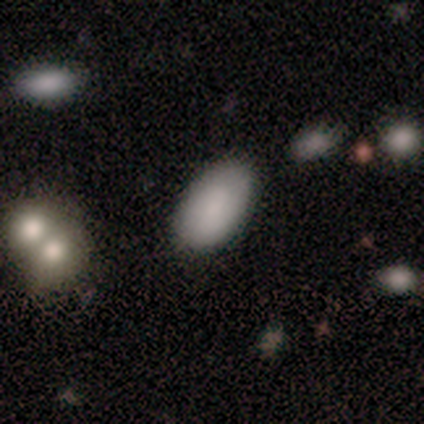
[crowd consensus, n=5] A smooth galaxy with no disk features (80%) that is in between round and cigar-shaped (100%).

Vote fractions:
- Smooth or featured? smooth: 80% / featured or disk: 20% / star or artifact: 0%
- How rounded? in between: 100% / round: 0% / cigar-shaped: 0%
- Merging? none: 100% / minor disturbance: 0% / major disturbance: 0% / merger: 0%